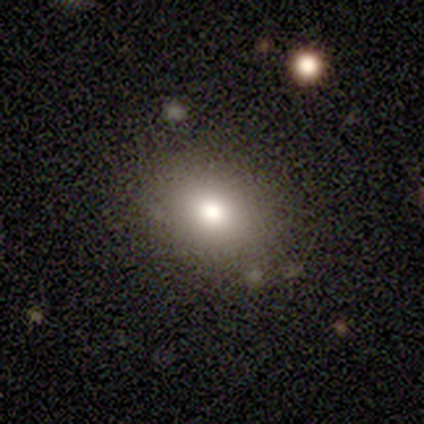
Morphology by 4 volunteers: Q: Smooth or featured?
A: smooth (50%); runner-up: featured or disk (25%)
Q: How rounded?
A: in between (100%)
Q: Merging?
A: none (67%); runner-up: merger (33%)